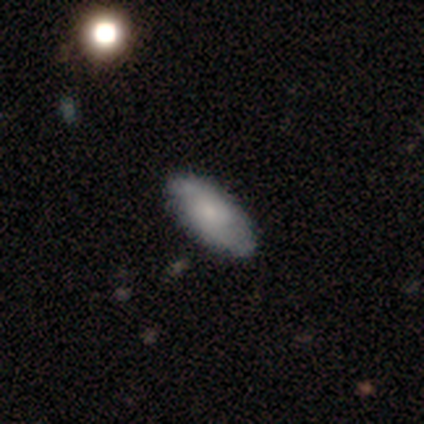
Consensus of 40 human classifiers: smooth_or_featured: smooth (p=0.60) [alt: featured or disk p=0.35]
how_rounded: in between (p=0.83) [alt: cigar-shaped p=0.17]
merging: none (p=0.89) [alt: minor disturbance p=0.08]